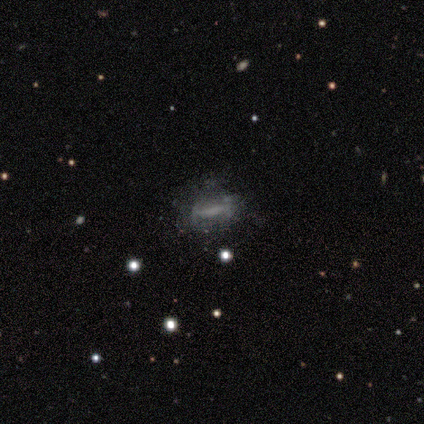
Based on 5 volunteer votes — Morphology: type=smooth (80%); roundness=in between (50%, tied with cigar-shaped); merging=none (75%).